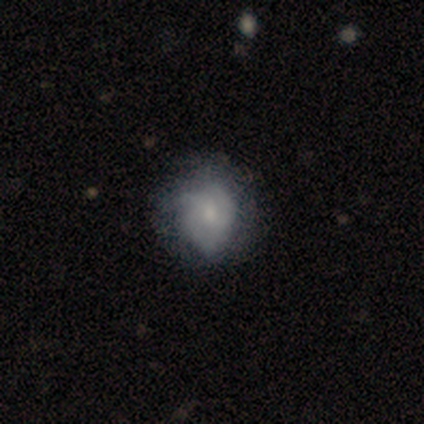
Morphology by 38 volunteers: A smooth galaxy with no disk features (47%, tied with featured or disk) that is round (83%). Merging: minor disturbance (39%).